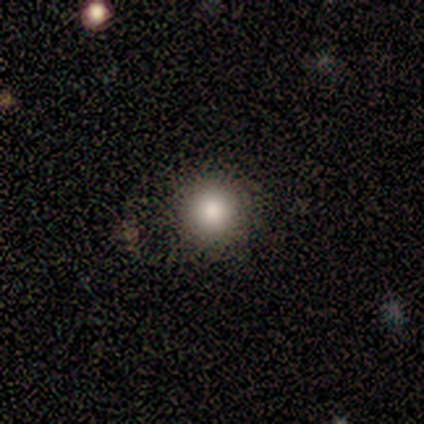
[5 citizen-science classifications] smooth-or-featured: smooth: 100% | featured or disk: 0% | star or artifact: 0%
  how-rounded: round: 100% | in between: 0% | cigar-shaped: 0%
  merging: none: 100% | minor disturbance: 0% | major disturbance: 0% | merger: 0%